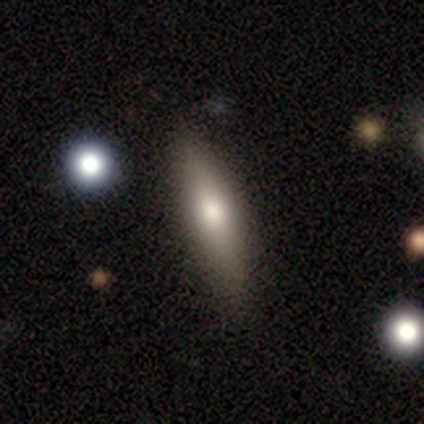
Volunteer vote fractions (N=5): smooth-or-featured: smooth: 60% | featured or disk: 40% | star or artifact: 0%
  how-rounded: cigar-shaped: 100% | round: 0% | in between: 0%
  merging: none: 80% | minor disturbance: 20% | major disturbance: 0% | merger: 0%